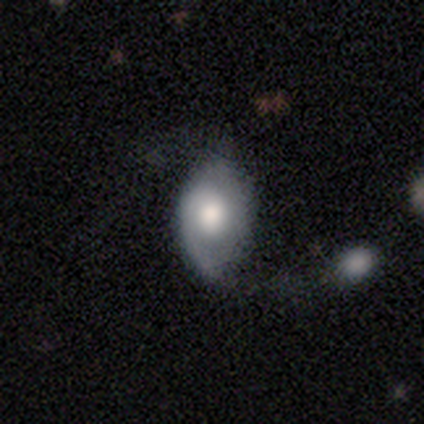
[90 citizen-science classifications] Smooth or featured? featured or disk (57%)
Edge-on disk? no (90%)
Bar? no (83%)
Spiral arms? yes (74%)
Spiral winding? loose (41%)
Spiral arm count? 2 (44%)
Bulge size? moderate (43%)
Merging? none (42%)